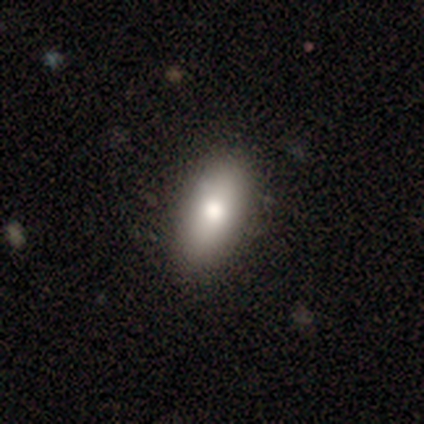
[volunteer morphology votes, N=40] This is likely a smooth galaxy (78%). How rounded: clearly in between (94%). Merging: clearly none (92%).